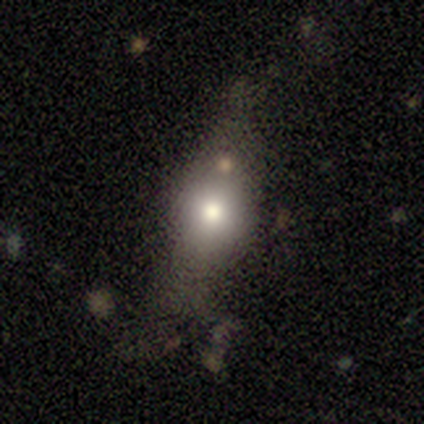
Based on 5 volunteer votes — Smooth or featured? 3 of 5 (60%) said smooth. How rounded? 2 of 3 (67%) said in between. Merging? 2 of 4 (50%) said none.